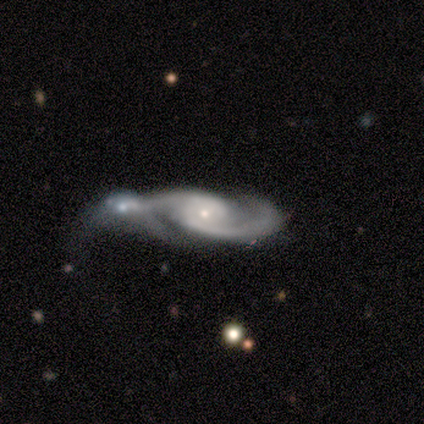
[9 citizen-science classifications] Q: Smooth or featured?
A: featured or disk (100%)
Q: Edge-on disk?
A: no (89%); runner-up: yes (11%)
Q: Bar?
A: no (88%); runner-up: strong (12%)
Q: Spiral arms?
A: yes (100%)
Q: Spiral winding?
A: medium (88%); runner-up: tight (12%)
Q: Spiral arm count?
A: 2 (100%)
Q: Bulge size?
A: small (88%); runner-up: moderate (12%)
Q: Merging?
A: merger (56%); runner-up: minor disturbance (33%)